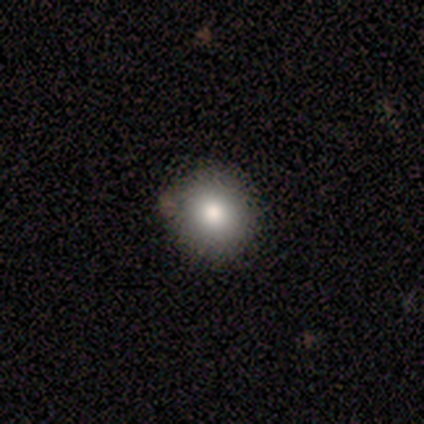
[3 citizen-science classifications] Volunteers were most divided on "how rounded": round: 67%, in between: 33%, cigar-shaped: 0%. More confident: smooth or featured — smooth (100%); merging — none (67%).